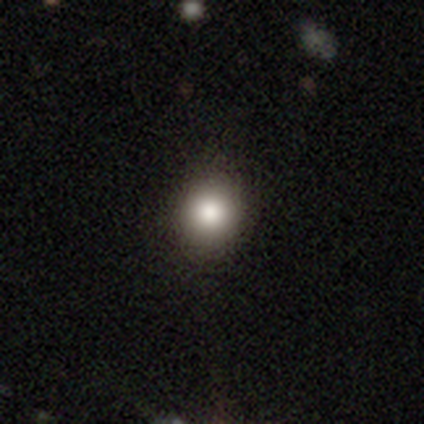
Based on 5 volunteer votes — This appears to be a smooth galaxy with no disk features (100%) that is round (80%). Merging: none (100%).